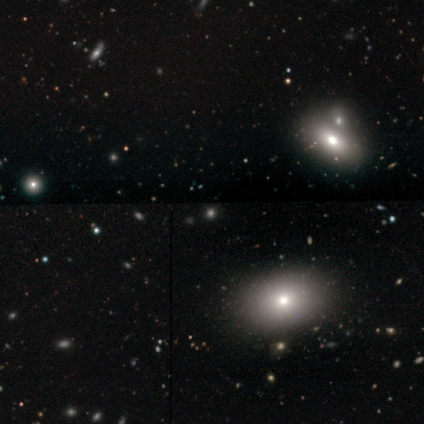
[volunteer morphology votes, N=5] Smooth or featured: star or artifact — 80% (smooth — 20%)